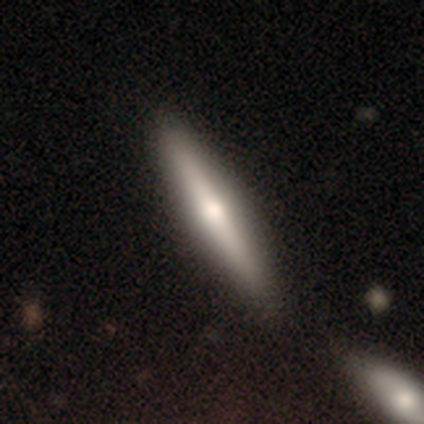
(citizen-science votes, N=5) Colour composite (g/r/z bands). It shows a smooth galaxy with no disk features (60%) that is cigar-shaped (67%). Merging: none (100%).